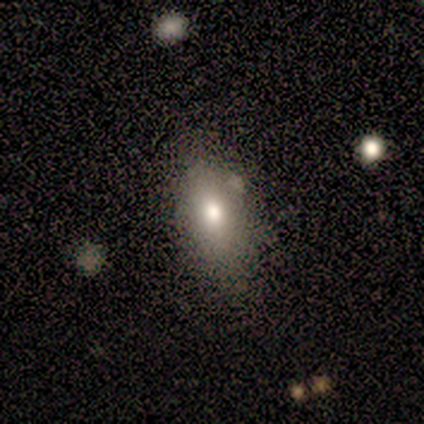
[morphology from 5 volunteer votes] smooth 80%, featured or disk 20%, star or artifact 0%. Down the decision tree: how rounded — in between (75%); merging — none (60%).